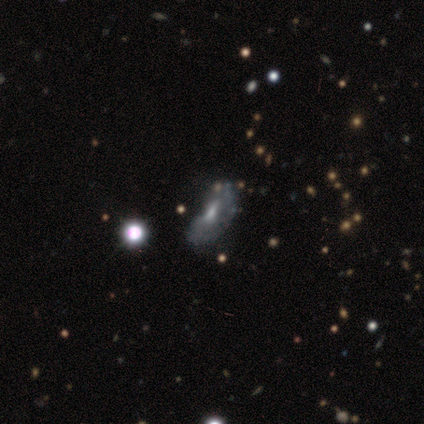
This appears to be a featured or disk galaxy (40%, tied with star or artifact) with a weak bar (50%, tied with no), no spiral arms (100%) and a moderate central bulge (50%, tied with small). Merging: major disturbance (67%).